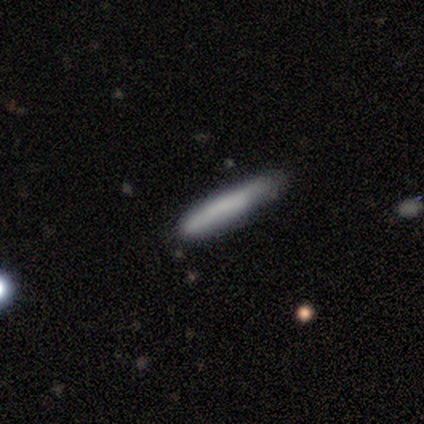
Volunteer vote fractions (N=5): Q: Smooth or featured?
A: smooth (80%); runner-up: featured or disk (20%)
Q: How rounded?
A: cigar-shaped (100%)
Q: Merging?
A: none (60%); runner-up: minor disturbance (40%)